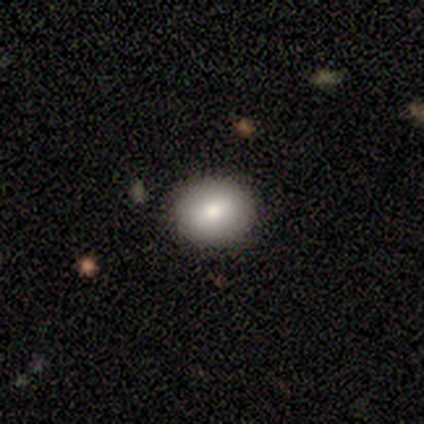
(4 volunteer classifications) A featured or disk galaxy (75%) with a weak bar (100%), no spiral arms (100%) and a moderate central bulge (100%). Merging: none (75%).